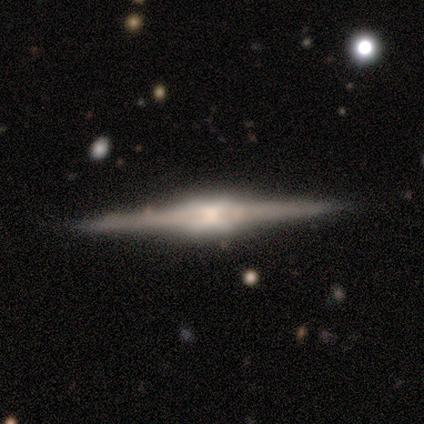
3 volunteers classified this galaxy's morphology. featured or disk 67%, smooth 33%, star or artifact 0%. Down the decision tree: edge-on disk — yes (100%); edge-on bulge — boxy (50%, tied with rounded); merging — minor disturbance (67%).